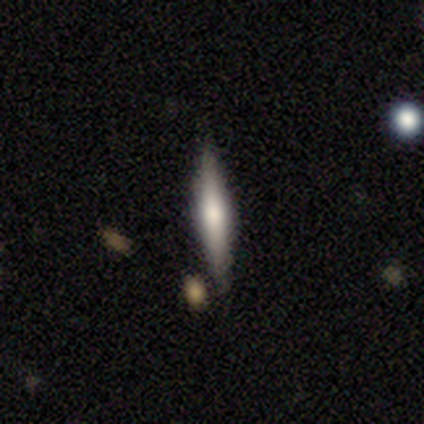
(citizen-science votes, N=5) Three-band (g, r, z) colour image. It shows a smooth galaxy with no disk features (80%) that is cigar-shaped (100%). Merging: none (80%).